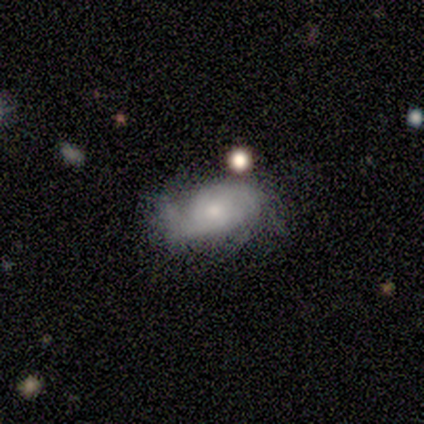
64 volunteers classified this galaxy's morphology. type=featured or disk (73%); edge-on=no (100%); bar=no (94%); spiral arms=yes (98%); winding=tight (46%); arm count=2 (43%); bulge=small (53%); merging=none (56%).